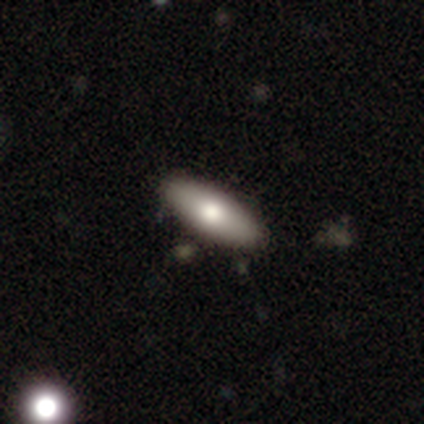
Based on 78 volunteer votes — This is likely a smooth galaxy (72%). How rounded: likely in between (75%). Merging: likely none (67%).